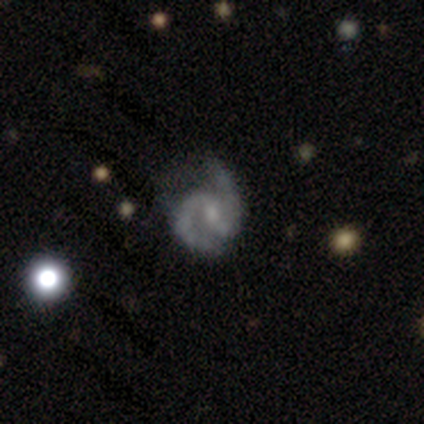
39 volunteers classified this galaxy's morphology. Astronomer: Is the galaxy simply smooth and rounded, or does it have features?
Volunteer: featured or disk — 92%.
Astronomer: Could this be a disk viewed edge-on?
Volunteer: no — 97%.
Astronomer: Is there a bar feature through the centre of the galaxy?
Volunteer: weak — 66%.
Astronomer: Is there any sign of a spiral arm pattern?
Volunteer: yes — 91%.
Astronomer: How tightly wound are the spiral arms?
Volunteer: medium — 59%.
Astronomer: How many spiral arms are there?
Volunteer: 2 — 97%.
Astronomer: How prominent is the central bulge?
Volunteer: small — 77%.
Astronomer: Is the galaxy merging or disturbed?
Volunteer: none — 59%.